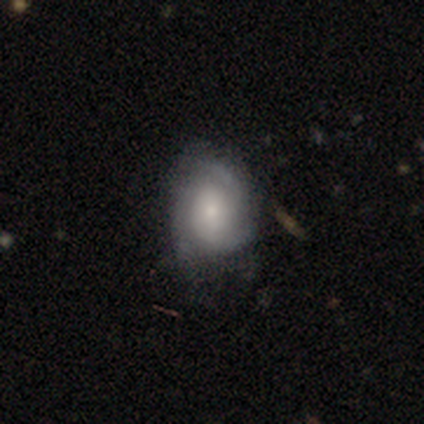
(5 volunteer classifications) This appears to be a featured or disk galaxy (80%) with no bar (100%), 3 (100%) medium (67%) spiral arms (75%) and a moderate central bulge (50%). Merging: none (60%).